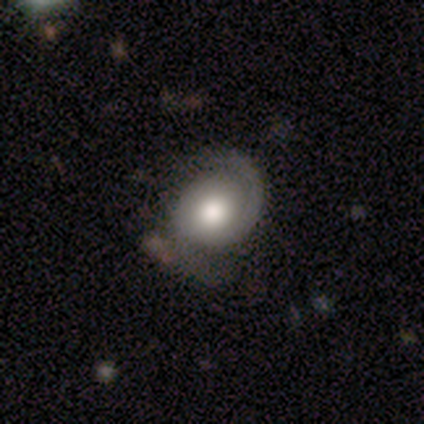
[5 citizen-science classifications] Smooth or featured? 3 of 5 (60%) said featured or disk. Edge-on disk? 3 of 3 (100%) said no. Bar? 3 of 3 (100%) said no. Spiral arms? 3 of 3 (100%) said yes. Spiral winding? 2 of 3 (67%) said medium. Spiral arm count? 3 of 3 (100%) said 2. Bulge size? 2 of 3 (67%) said large. Merging? 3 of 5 (60%) said none.